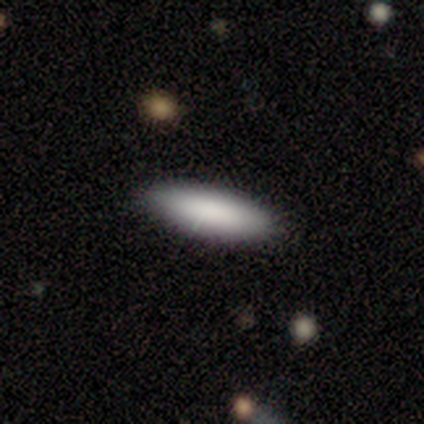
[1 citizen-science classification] A smooth galaxy with no disk features (100%) that is cigar-shaped (100%).

Vote fractions:
- Smooth or featured? smooth: 100% / featured or disk: 0% / star or artifact: 0%
- How rounded? cigar-shaped: 100% / round: 0% / in between: 0%
- Merging? none: 100% / minor disturbance: 0% / major disturbance: 0% / merger: 0%